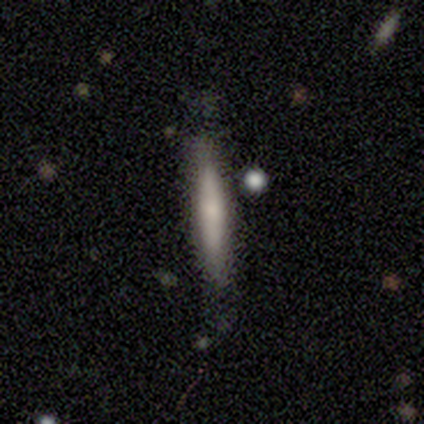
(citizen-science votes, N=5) Smooth or featured? smooth (60%)
How rounded? cigar-shaped (100%)
Merging? none (80%)